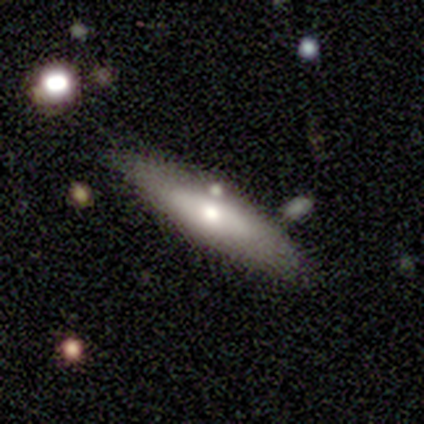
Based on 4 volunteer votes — Smooth or featured? smooth (75%)
How rounded? cigar-shaped (67%)
Merging? none (50%)